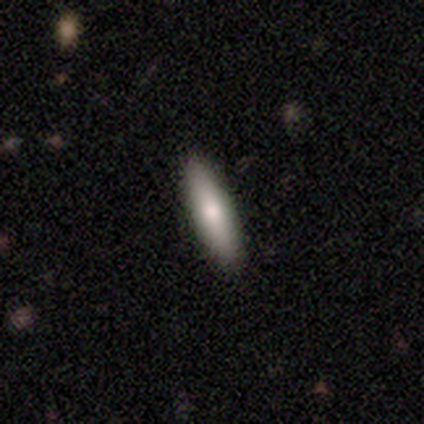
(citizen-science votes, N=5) Smooth or featured: smooth — 60% (featured or disk — 40%)
How rounded: in between — 67% (cigar-shaped — 33%)
Merging: none — 100%